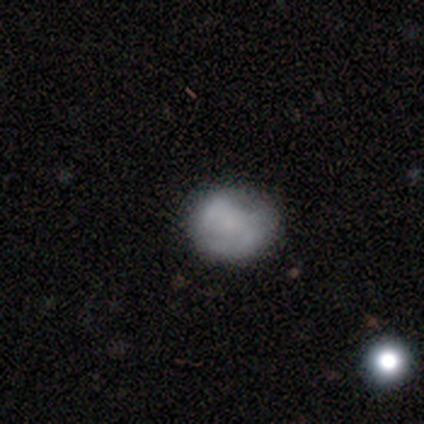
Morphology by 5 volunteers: Smooth or featured? smooth (80%)
How rounded? round (75%)
Merging? none (80%)